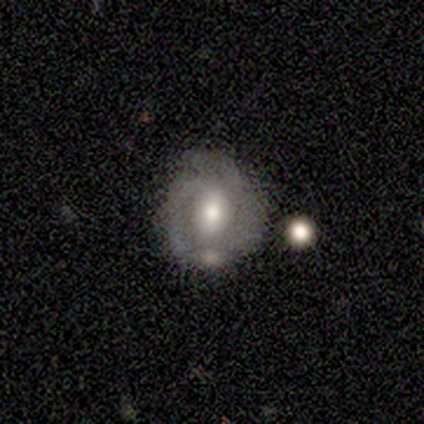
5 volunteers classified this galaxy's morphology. type=smooth (60%); roundness=in between (67%); merging=none (50%).